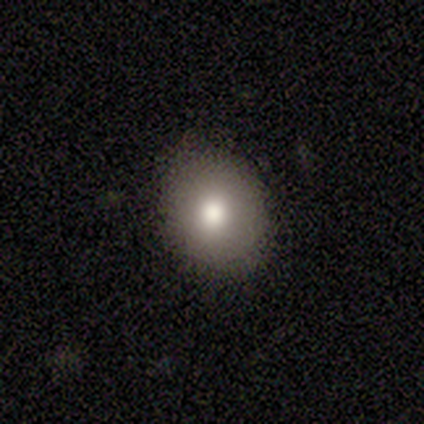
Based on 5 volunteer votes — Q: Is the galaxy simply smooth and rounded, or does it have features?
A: smooth — 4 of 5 (80%).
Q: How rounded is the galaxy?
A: round — 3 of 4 (75%).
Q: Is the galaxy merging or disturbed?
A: none — 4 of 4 (100%).